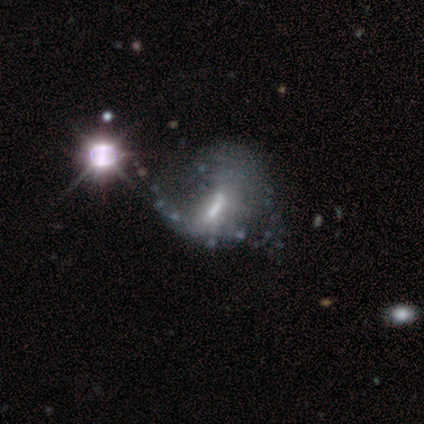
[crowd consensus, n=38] Smooth or featured? featured or disk (63%)
Edge-on disk? no (88%)
Bar? weak (43%)
Spiral arms? no (52%)
Bulge size? moderate (48%)
Merging? major disturbance (23%)